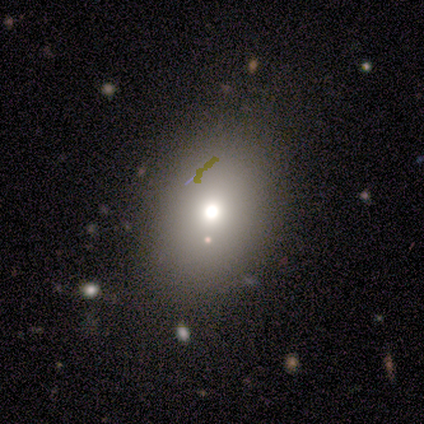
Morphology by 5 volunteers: A smooth galaxy with no disk features (80%) that is round (50%, tied with in between). Merging: none (80%).